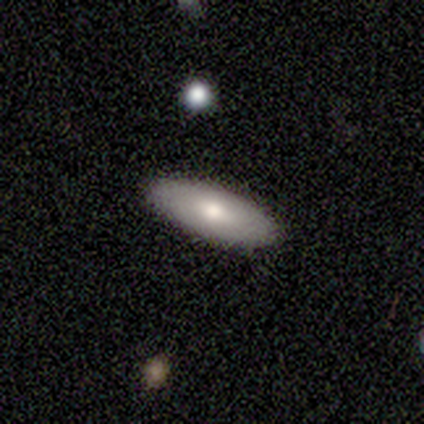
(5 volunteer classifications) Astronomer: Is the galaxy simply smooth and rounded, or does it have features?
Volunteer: smooth — 60% (runner-up: featured or disk, 40%).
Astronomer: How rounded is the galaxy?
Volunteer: in between — 67%.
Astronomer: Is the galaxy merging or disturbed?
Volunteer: none — 100%.